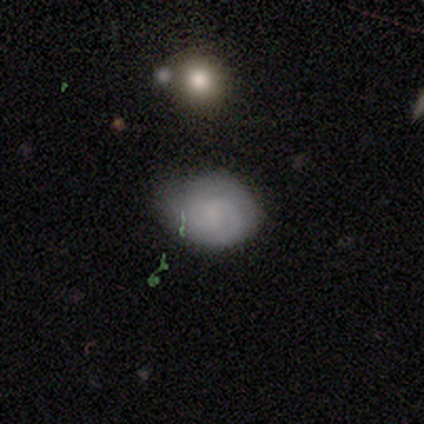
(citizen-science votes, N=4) Volunteers were most divided on "how rounded": in between: 67%, round: 33%, cigar-shaped: 0%. More confident: smooth or featured — smooth (75%); merging — minor disturbance (75%).